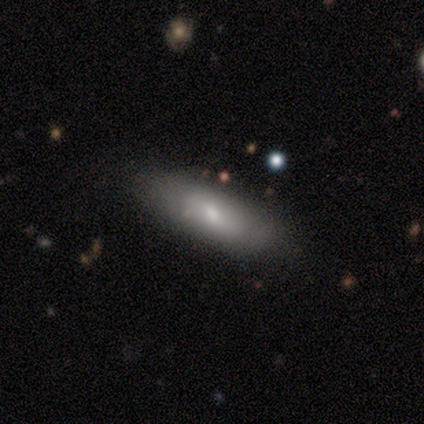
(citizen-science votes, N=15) smooth-or-featured: smooth: 73% | featured or disk: 20% | star or artifact: 7%
  how-rounded: cigar-shaped: 64% | in between: 36% | round: 0%
  merging: none: 79% | minor disturbance: 14% | major disturbance: 7% | merger: 0%